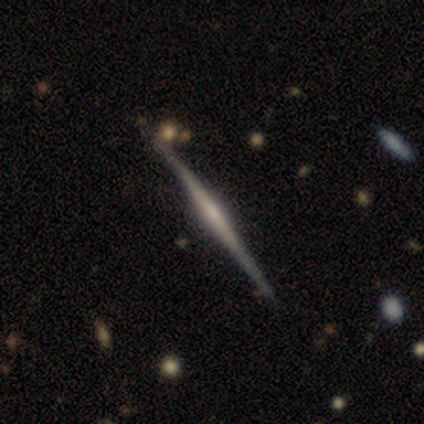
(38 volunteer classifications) This is clearly a featured or disk galaxy (82%). It is clearly viewed edge-on (100%). Edge-on bulge: possibly rounded (58%). Merging: clearly none (91%).